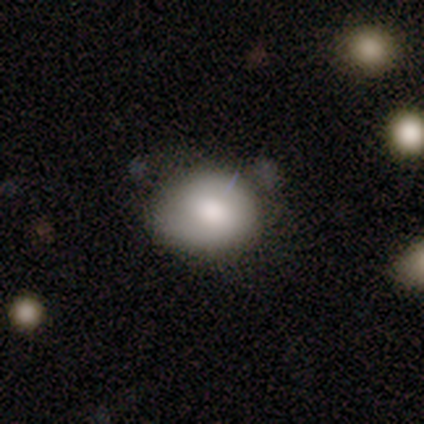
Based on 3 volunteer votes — Smooth or featured?
  - smooth: 67% *
  - featured or disk: 33%
  - star or artifact: 0%
How rounded?
  - round: 100% *
  - in between: 0%
  - cigar-shaped: 0%
Merging?
  - minor disturbance: 67% *
  - none: 33%
  - major disturbance: 0%
  - merger: 0%